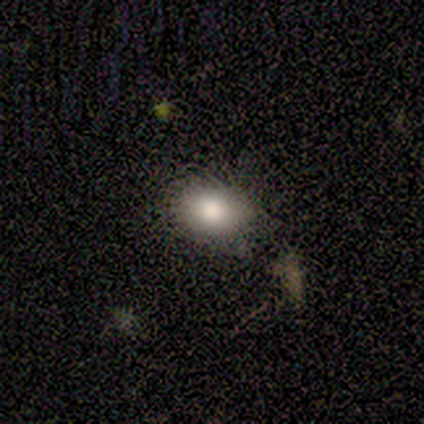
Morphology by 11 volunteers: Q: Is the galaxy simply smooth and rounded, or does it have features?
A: smooth — 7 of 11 (64%).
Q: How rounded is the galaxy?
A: in between — 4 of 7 (57%).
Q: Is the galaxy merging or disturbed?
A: none — 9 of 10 (90%).